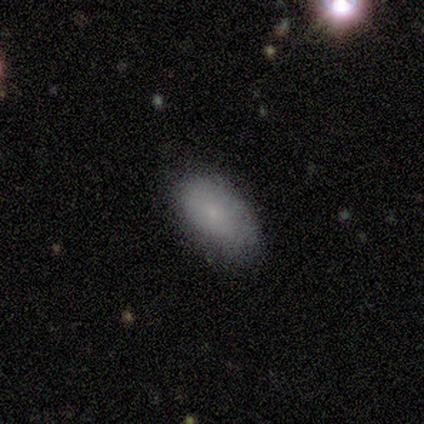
Morphology: type=smooth (100%); roundness=in between (100%); merging=none (60%).